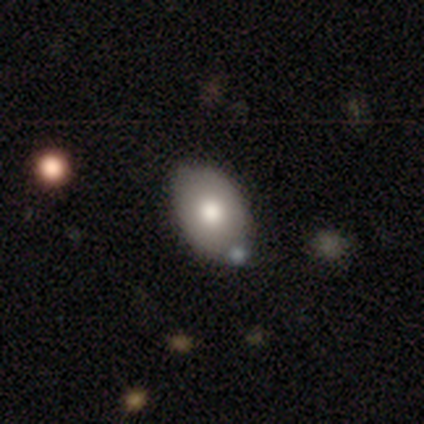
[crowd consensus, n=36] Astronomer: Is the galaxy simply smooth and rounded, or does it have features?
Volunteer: smooth — 78%.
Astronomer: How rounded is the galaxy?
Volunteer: in between — 89%.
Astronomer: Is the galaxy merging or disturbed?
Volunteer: none — 79%.